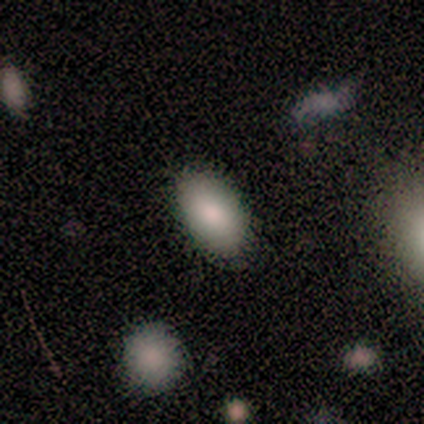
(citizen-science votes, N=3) This appears to be a smooth galaxy with no disk features (67%) that is in between round and cigar-shaped (100%). Merging: none (100%).